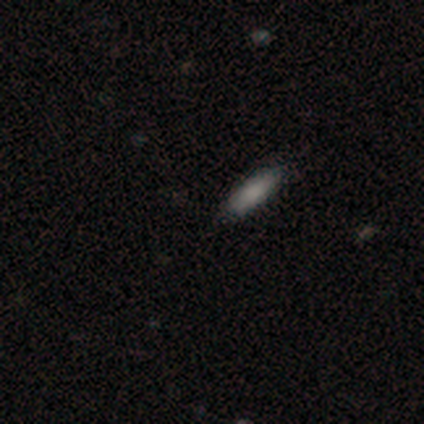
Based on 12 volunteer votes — A smooth galaxy with no disk features (92%) that is cigar-shaped (55%). Merging: none (92%).